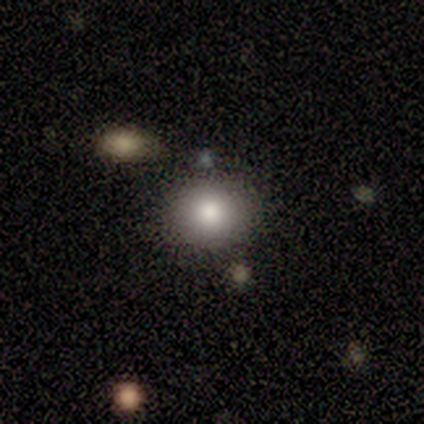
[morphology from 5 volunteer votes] Smooth or featured? 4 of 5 (80%) said smooth. How rounded? 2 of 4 (50%) said round. Merging? 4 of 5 (80%) said none.